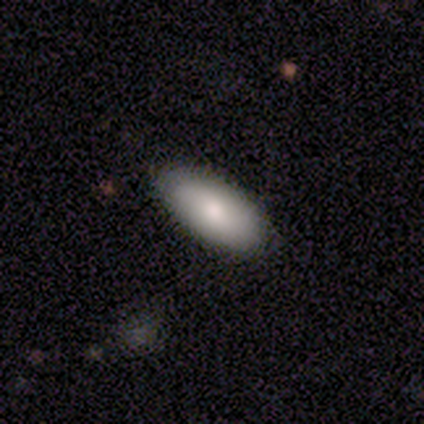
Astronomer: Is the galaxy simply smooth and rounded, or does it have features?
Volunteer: smooth — 60% (runner-up: featured or disk, 40%).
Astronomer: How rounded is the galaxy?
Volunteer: in between — 100%.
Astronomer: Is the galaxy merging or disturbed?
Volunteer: none — 100%.